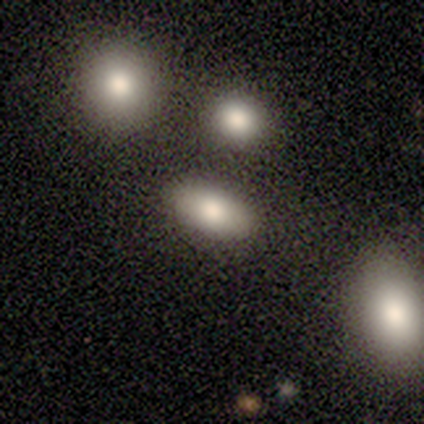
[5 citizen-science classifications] Overall: smooth (60%; featured or disk 20%). How rounded: in between (100%). Merging: none (100%).